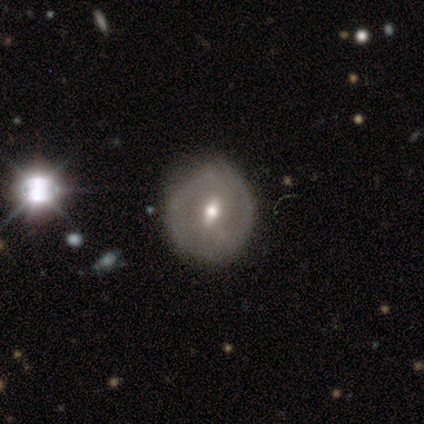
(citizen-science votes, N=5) This is clearly a featured or disk galaxy (80%). It is likely not viewed edge-on (75%). Bar: likely no (67%). Spiral arm pattern: likely no (67%). Central bulge: likely moderate (67%). Merging: marginally none (40%, tied with major disturbance).